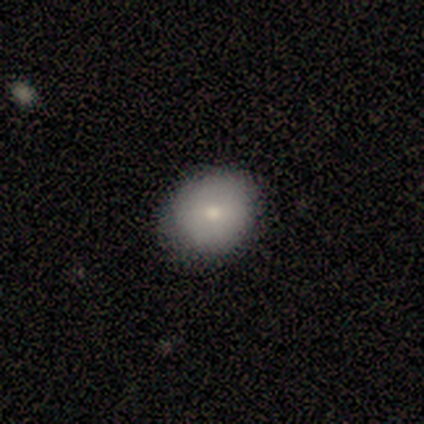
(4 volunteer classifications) smooth 100%, featured or disk 0%, star or artifact 0%. Down the decision tree: how rounded — round (75%); merging — none (75%).